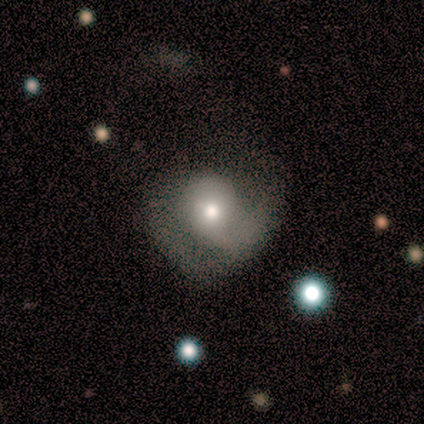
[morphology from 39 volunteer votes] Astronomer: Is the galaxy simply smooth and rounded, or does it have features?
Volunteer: smooth — 51% (runner-up: featured or disk, 49%).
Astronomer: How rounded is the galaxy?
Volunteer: round — 85%.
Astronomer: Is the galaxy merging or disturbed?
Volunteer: none — 51%.